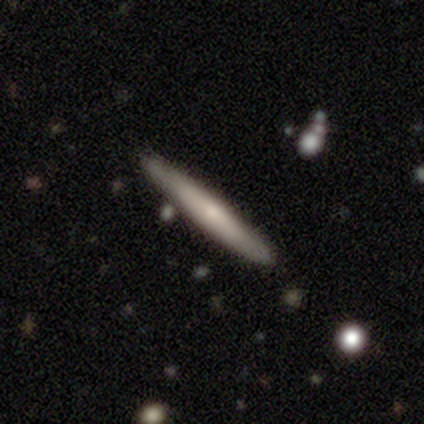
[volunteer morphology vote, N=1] Q: Smooth or featured?
A: smooth (100%)
Q: How rounded?
A: cigar-shaped (100%)
Q: Merging?
A: none (100%)